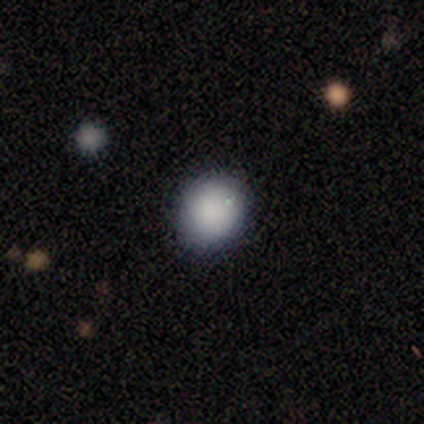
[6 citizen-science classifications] Morphology: type=smooth (100%); roundness=round (83%); merging=none (100%).